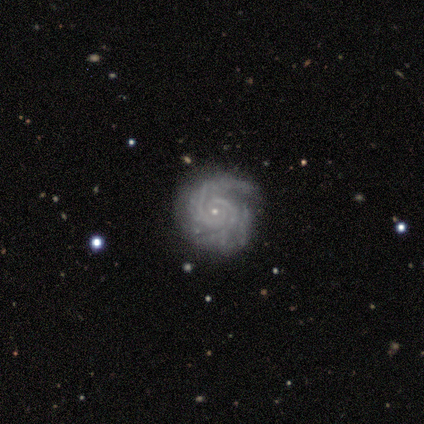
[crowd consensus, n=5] Overall: featured or disk (100%). Edge-on disk: no (100%). Bar: no (100%). Spiral arms: yes (100%). Spiral arm count: 2 (80%). Spiral winding: tight (80%). Bulge size: small (100%). Merging: none (100%).